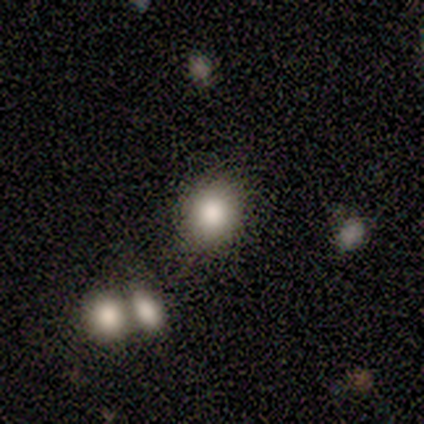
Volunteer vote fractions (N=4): A smooth galaxy with no disk features (50%, tied with star or artifact) that is in between round and cigar-shaped (100%).

Vote fractions:
- Smooth or featured? smooth: 50% (tied) / star or artifact: 50% (tied) / featured or disk: 0%
- How rounded? in between: 100% / round: 0% / cigar-shaped: 0%
- Merging? none: 100% / minor disturbance: 0% / major disturbance: 0% / merger: 0%